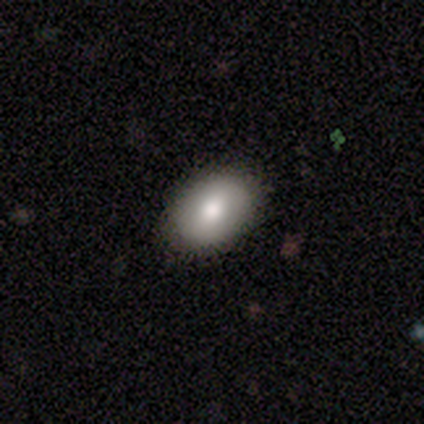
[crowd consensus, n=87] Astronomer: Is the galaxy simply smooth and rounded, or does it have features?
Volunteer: smooth — 84%.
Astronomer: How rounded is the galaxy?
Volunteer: in between — 82%.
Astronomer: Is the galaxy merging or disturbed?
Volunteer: none — 87%.